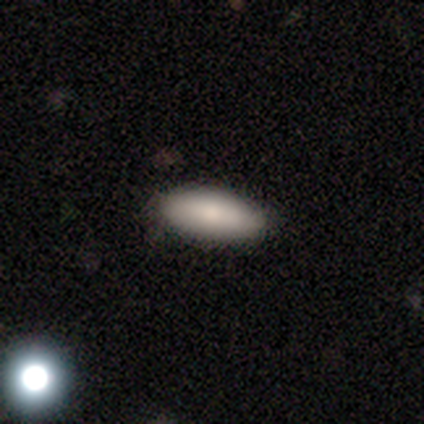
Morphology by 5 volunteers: smooth_or_featured: smooth (p=0.80) [alt: featured or disk p=0.20]
how_rounded: in between (p=0.75) [alt: cigar-shaped p=0.25]
merging: none (p=1.00)